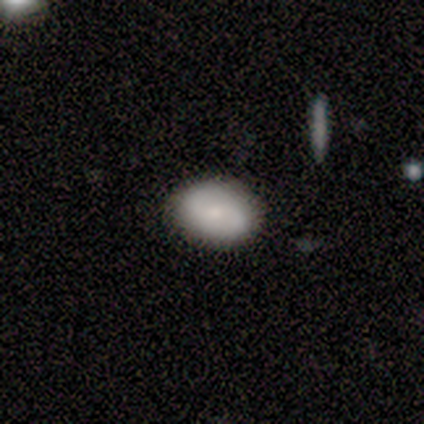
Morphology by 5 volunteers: smooth_or_featured: smooth (p=0.60) [alt: featured or disk p=0.40]
how_rounded: in between (p=1.00)
merging: none (p=0.80) [alt: merger p=0.20]